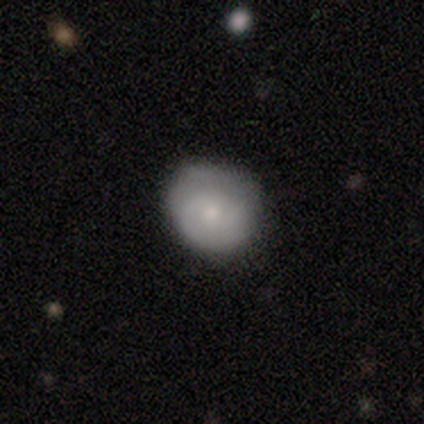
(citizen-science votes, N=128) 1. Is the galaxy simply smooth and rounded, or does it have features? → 52% smooth, 43% featured or disk, 5% star or artifact.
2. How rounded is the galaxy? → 80% round, 20% in between, 0% cigar-shaped.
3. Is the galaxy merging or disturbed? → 80% none, 18% minor disturbance, 2% major disturbance, 0% merger.